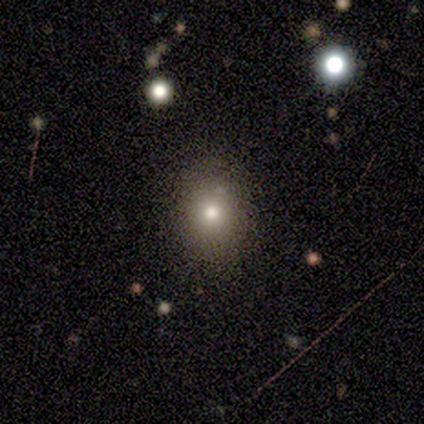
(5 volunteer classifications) This appears to be a smooth galaxy with no disk features (100%) that is round (80%). Merging: none (60%).